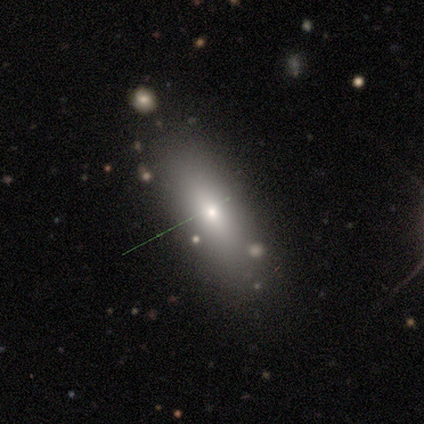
Smooth or featured? 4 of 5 (80%) said smooth. How rounded? 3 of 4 (75%) said in between. Merging? 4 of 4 (100%) said none.